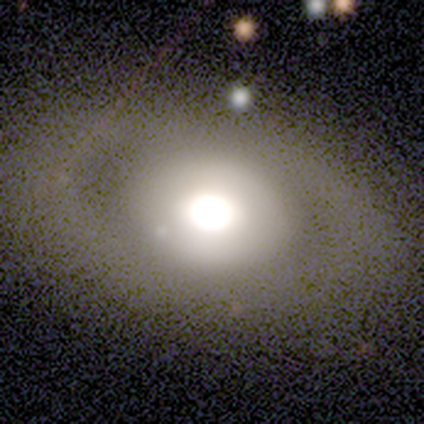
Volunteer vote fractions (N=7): Q: Smooth or featured?
A: featured or disk (57%); runner-up: smooth (43%)
Q: Edge-on disk?
A: no (100%)
Q: Bar?
A: no (75%); runner-up: strong (25%)
Q: Spiral arms?
A: no (100%)
Q: Bulge size?
A: dominant (50%); tied with: large (50%)
Q: Merging?
A: none (100%)